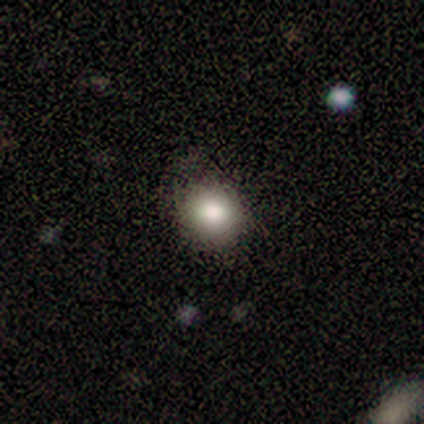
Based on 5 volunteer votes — Smooth or featured? smooth (60%)
How rounded? round (100%)
Merging? none (67%)